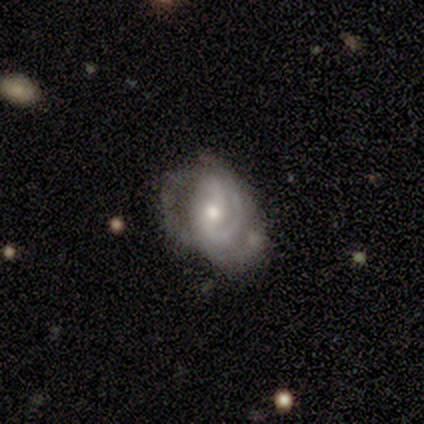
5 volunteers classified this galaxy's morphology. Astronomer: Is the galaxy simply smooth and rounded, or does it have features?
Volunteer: featured or disk — 80%.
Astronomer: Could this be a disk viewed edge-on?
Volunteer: no — 100%.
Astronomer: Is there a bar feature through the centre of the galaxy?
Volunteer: weak — 50%, tied with no at 50%.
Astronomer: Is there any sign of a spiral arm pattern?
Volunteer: yes — 50%, tied with no at 50%.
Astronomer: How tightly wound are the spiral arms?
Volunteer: tight — 50%, tied with medium at 50%.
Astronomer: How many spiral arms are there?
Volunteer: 1 — 50%, tied with 3 at 50%.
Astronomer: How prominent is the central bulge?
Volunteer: small — 75%.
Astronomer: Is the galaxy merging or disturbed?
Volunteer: none — 40%, tied with minor disturbance at 40%.